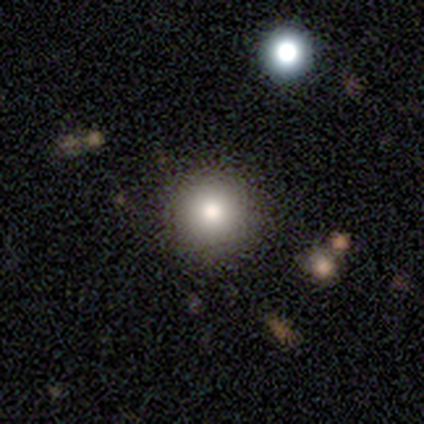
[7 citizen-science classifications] This appears to be a smooth galaxy with no disk features (100%) that is round (100%). Merging: none (100%).